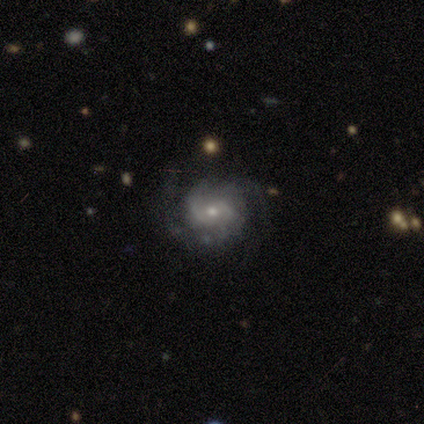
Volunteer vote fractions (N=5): Smooth or featured? featured or disk (100%)
Edge-on disk? no (80%)
Bar? no (75%)
Spiral arms? yes (100%)
Spiral winding? tight (75%)
Spiral arm count? 3 (50%)
Bulge size? moderate (50%, tied with small)
Merging? none (60%)